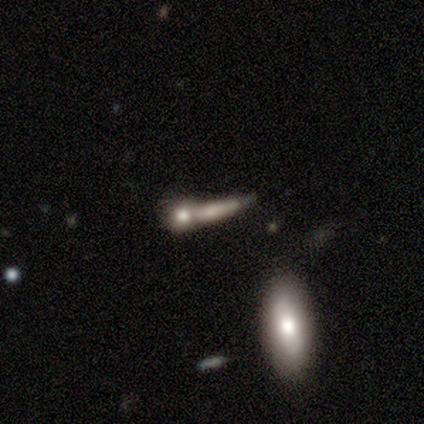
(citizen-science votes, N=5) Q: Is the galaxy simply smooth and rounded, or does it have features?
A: smooth — 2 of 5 (40%, tied with featured or disk).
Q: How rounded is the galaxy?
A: cigar-shaped — 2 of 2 (100%).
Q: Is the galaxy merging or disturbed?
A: merger — 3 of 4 (75%).